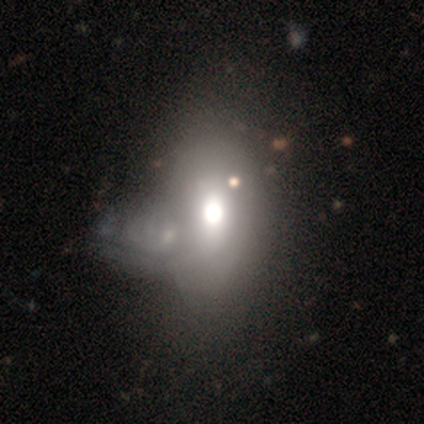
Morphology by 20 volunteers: Smooth or featured?
  - smooth: 50% *
  - featured or disk: 25%
  - star or artifact: 25%
How rounded?
  - in between: 80% *
  - cigar-shaped: 20%
  - round: 0%
Merging?
  - merger: 53% *
  - none: 7%
  - major disturbance: 7%
  - minor disturbance: 0%